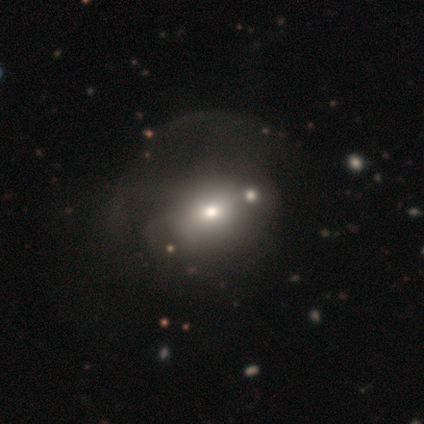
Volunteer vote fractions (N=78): This appears to be a smooth galaxy with no disk features (65%) that is round (65%). Merging: major disturbance (26%).